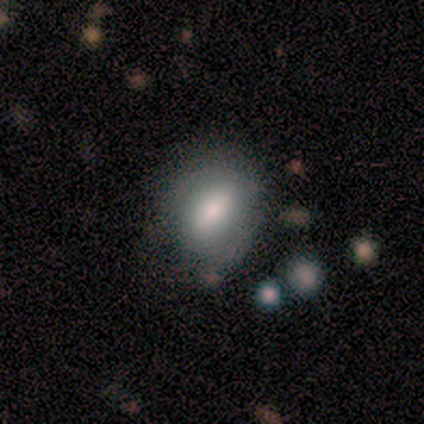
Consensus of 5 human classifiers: smooth 80%, featured or disk 20%, star or artifact 0%. Down the decision tree: how rounded — in between (75%); merging — minor disturbance (60%).